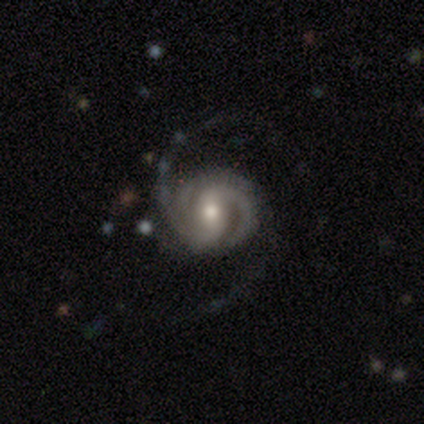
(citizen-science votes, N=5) smooth_or_featured: featured or disk (p=1.00)
disk_edge_on: no (p=1.00)
bar: no (p=0.80) [alt: weak p=0.20]
has_spiral_arms: yes (p=1.00)
spiral_winding: tight (p=0.40) [tied with: medium p=0.40]
spiral_arm_count: 2 (p=0.40) [alt: 1 p=0.20]
bulge_size: moderate (p=0.60) [alt: dominant p=0.20]
merging: none (p=0.60) [alt: minor disturbance p=0.40]